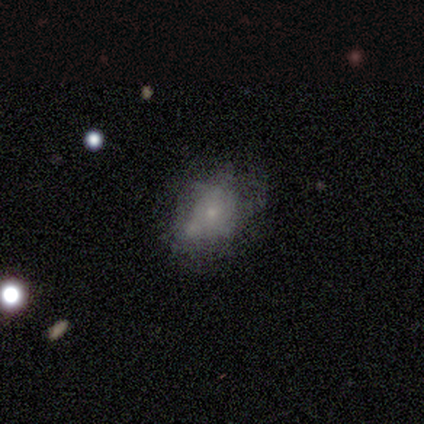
Smooth or featured: featured or disk — 83% (smooth — 17%)
Edge-on disk: no — 80% (yes — 20%)
Bar: no — 100%
Spiral arms: no — 75% (yes — 25%)
Bulge size: small — 75% (moderate — 25%)
Merging: minor disturbance — 67% (major disturbance — 17%)